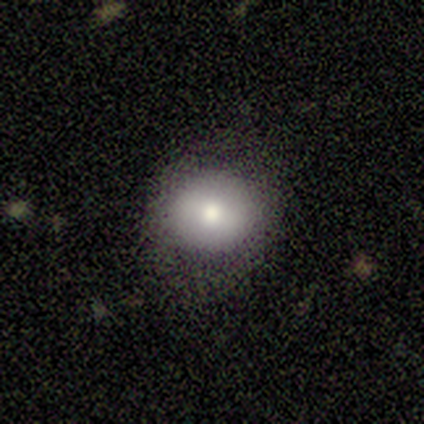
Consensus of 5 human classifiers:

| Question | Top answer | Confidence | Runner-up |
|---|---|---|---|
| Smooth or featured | featured or disk | 60% | smooth (40%) |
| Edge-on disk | no | 67% | yes (33%) |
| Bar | no | 100% | — |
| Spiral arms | no | 100% | — |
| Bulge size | large | 50% | tied: moderate (50%) |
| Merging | none | 100% | — |